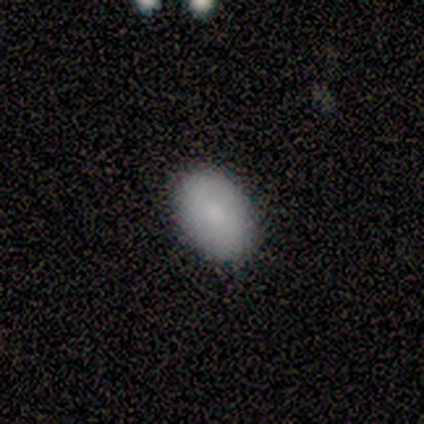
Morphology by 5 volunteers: Smooth or featured? smooth (80%)
How rounded? in between (100%)
Merging? none (100%)